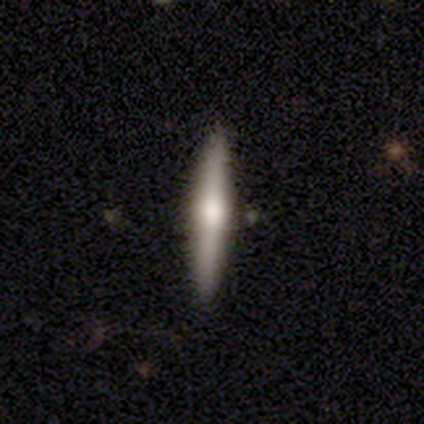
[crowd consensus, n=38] Q: Smooth or featured?
A: smooth (58%); runner-up: featured or disk (39%)
Q: How rounded?
A: cigar-shaped (95%); runner-up: in between (5%)
Q: Merging?
A: none (89%); runner-up: minor disturbance (8%)